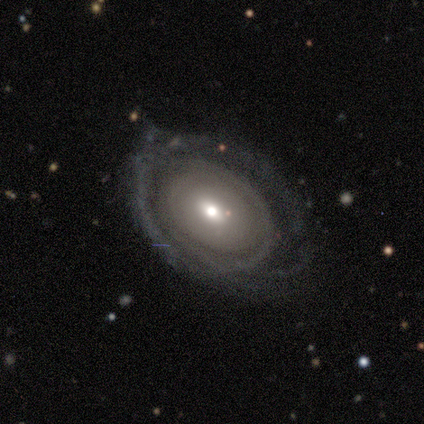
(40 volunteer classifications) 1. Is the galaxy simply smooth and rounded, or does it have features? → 70% featured or disk, 25% smooth, 5% star or artifact.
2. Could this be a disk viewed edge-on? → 100% no, 0% yes.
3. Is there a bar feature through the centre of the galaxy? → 75% no, 21% weak, 4% strong.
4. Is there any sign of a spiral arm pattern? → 57% yes, 43% no.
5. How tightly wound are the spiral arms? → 75% tight, 19% loose, 6% medium.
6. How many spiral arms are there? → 50% can't tell, 31% 2, 12% more than 4, 6% 1, 0% 3, 0% 4.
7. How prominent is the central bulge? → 46% moderate, 39% small, 7% large, 4% dominant, 4% none.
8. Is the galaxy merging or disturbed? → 53% none, 24% minor disturbance, 21% major disturbance, 3% merger.